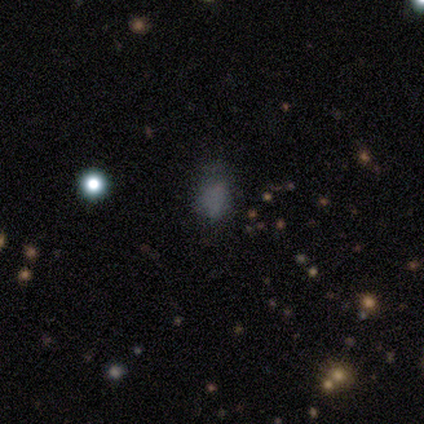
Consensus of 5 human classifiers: Morphology: type=smooth (40%, tied with star or artifact); roundness=in between (100%); merging=none (67%).